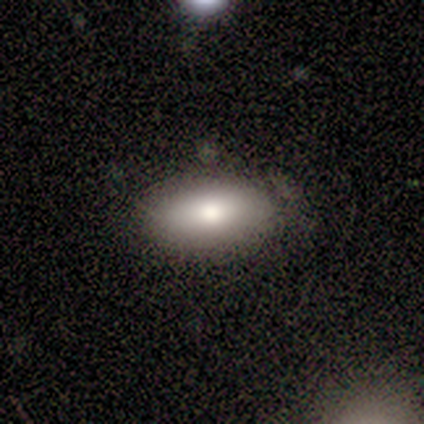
A smooth galaxy with no disk features (80%) that is in between round and cigar-shaped (100%). Merging: none (100%).